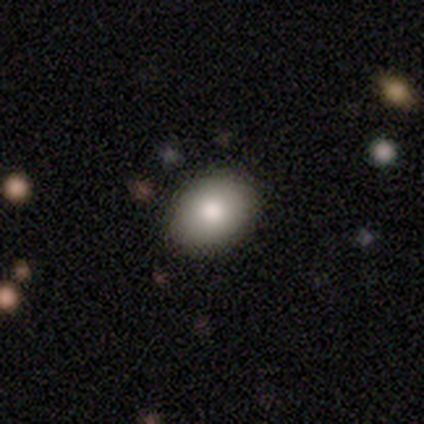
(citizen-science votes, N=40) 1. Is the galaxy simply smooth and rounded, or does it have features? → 88% smooth, 8% star or artifact, 5% featured or disk.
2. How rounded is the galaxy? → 63% in between, 37% round, 0% cigar-shaped.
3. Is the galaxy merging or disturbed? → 95% none, 3% minor disturbance, 3% merger, 0% major disturbance.